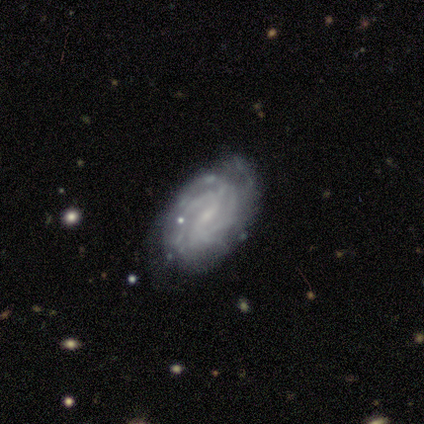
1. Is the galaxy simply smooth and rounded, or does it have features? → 100% featured or disk, 0% smooth, 0% star or artifact.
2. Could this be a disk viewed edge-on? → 100% no, 0% yes.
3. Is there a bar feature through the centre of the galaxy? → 60% weak, 40% no, 0% strong.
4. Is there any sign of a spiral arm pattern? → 100% yes, 0% no.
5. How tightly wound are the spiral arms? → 80% tight, 20% medium, 0% loose.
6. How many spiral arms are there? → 60% 2, 20% more than 4, 20% can't tell, 0% 1, 0% 3, 0% 4.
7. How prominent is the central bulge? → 100% small, 0% dominant, 0% large, 0% moderate, 0% none.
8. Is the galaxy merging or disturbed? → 60% none, 20% major disturbance, 20% merger, 0% minor disturbance.